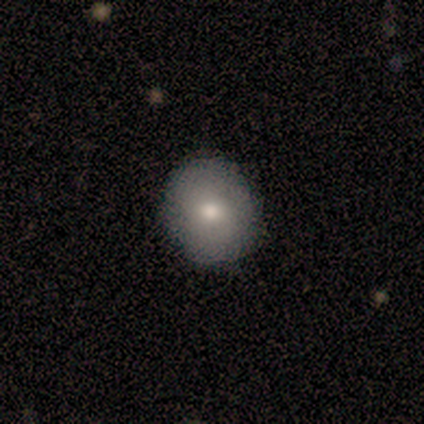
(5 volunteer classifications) This is clearly a smooth galaxy (80%). How rounded: clearly round (100%). Merging: clearly none (100%).